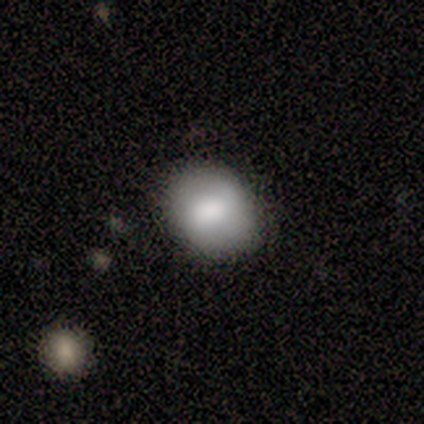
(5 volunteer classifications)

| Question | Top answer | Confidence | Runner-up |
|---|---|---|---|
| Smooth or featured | smooth | 80% | featured or disk (20%) |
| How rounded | round | 50% | tied: in between (50%) |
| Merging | none | 80% | minor disturbance (20%) |